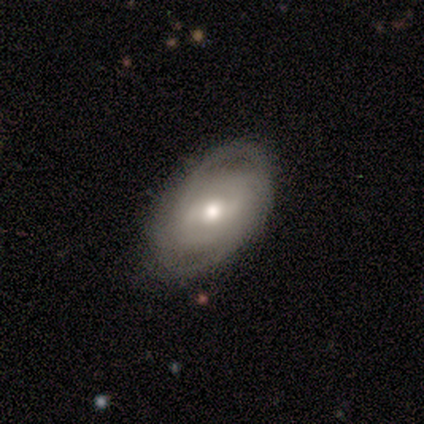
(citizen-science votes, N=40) A featured or disk galaxy (75%) with a weak bar (54%), 2 (55%) tight (59%) spiral arms (79%) and a moderate central bulge (64%).

Vote fractions:
- Smooth or featured? featured or disk: 75% / smooth: 18% / star or artifact: 8%
- Edge-on disk? no: 93% / yes: 7%
- Bar? weak: 54% / no: 32% / strong: 14%
- Spiral arms? yes: 79% / no: 21%
- Spiral winding? tight: 59% / medium: 36% / loose: 5%
- Spiral arm count? 2: 55% / can't tell: 32% / 3: 9% / 4: 5% / 1: 0% / more than 4: 0%
- Bulge size? moderate: 64% / small: 32% / large: 4% / dominant: 0% / none: 0%
- Merging? none: 76% / minor disturbance: 16% / major disturbance: 5% / merger: 3%